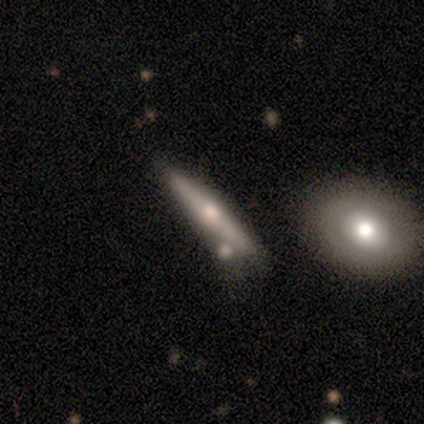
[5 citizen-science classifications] Smooth or featured? featured or disk (80%)
Edge-on disk? yes (100%)
Edge-on bulge? rounded (100%)
Merging? none (60%)